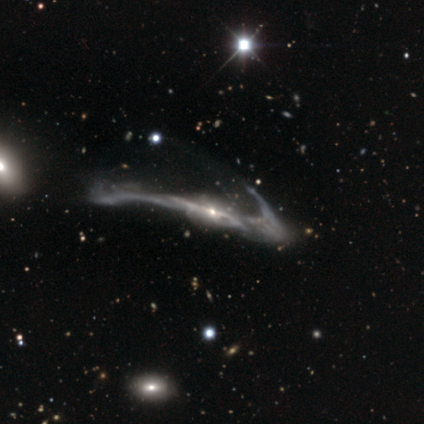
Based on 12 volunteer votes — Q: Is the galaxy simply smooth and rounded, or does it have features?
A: featured or disk — 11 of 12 (92%).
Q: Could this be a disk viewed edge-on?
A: no — 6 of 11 (55%).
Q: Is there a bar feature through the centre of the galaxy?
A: strong — 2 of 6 (33%, tied with weak and no).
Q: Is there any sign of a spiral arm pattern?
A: yes — 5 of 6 (83%).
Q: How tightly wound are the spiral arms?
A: loose — 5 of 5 (100%).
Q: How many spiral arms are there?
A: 2 — 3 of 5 (60%).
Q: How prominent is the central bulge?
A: small — 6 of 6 (100%).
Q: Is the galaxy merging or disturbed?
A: major disturbance — 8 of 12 (67%).